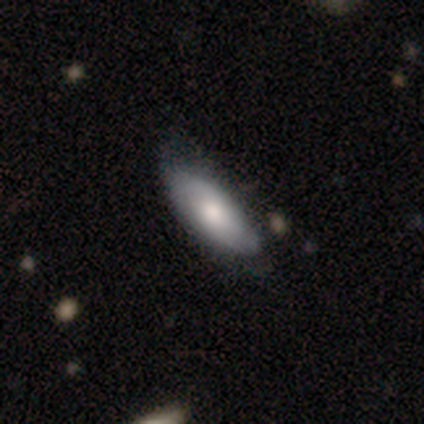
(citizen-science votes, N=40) Morphology: type=smooth (57%); roundness=in between (96%); merging=none (46%).